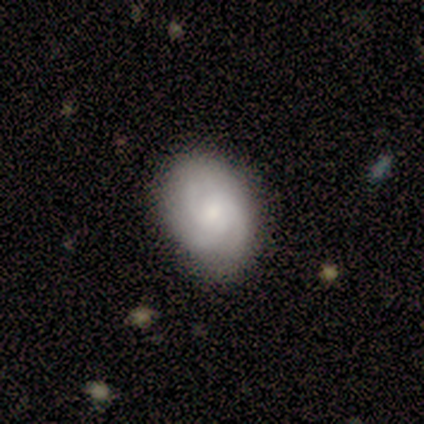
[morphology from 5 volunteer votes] Smooth or featured: featured or disk — 60% (smooth — 40%)
Edge-on disk: no — 100%
Bar: weak — 67% (no — 33%)
Spiral arms: yes — 100%
Spiral winding: medium — 67% (tight — 33%)
Spiral arm count: 2 — 67% (3 — 33%)
Bulge size: small — 67% (none — 33%)
Merging: none — 80% (major disturbance — 20%)